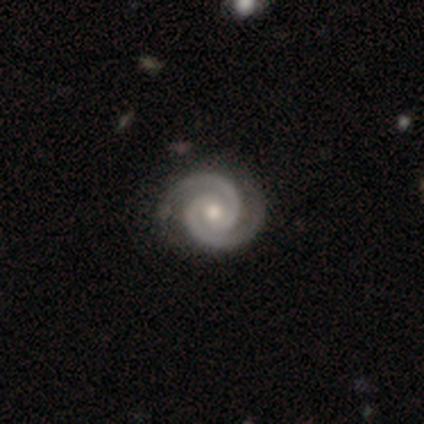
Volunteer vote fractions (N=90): smooth_or_featured: featured or disk (p=0.93) [alt: star or artifact p=0.04]
disk_edge_on: no (p=1.00)
bar: no (p=0.55) [alt: weak p=0.33]
has_spiral_arms: yes (p=1.00)
spiral_winding: tight (p=0.76) [alt: medium p=0.23]
spiral_arm_count: 2 (p=0.98) [alt: 3 p=0.01]
bulge_size: moderate (p=0.65) [alt: small p=0.33]
merging: none (p=0.88) [alt: minor disturbance p=0.09]